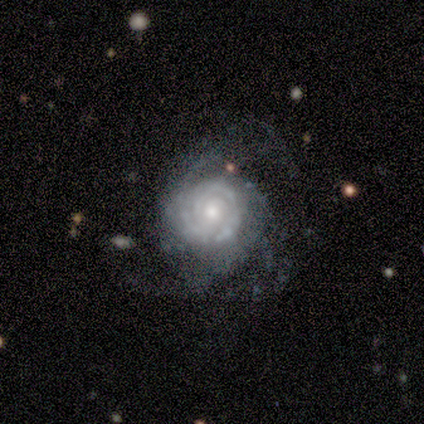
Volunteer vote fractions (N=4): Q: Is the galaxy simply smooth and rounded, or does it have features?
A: featured or disk — 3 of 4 (75%).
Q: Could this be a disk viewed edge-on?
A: no — 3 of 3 (100%).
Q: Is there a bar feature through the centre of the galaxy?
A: no — 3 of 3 (100%).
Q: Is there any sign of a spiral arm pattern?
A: yes — 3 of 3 (100%).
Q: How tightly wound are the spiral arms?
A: tight — 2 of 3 (67%).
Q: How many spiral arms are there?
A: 2 — 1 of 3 (33%, tied with 4 and can't tell).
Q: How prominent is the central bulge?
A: moderate — 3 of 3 (100%).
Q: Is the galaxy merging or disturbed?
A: major disturbance — 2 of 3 (67%).